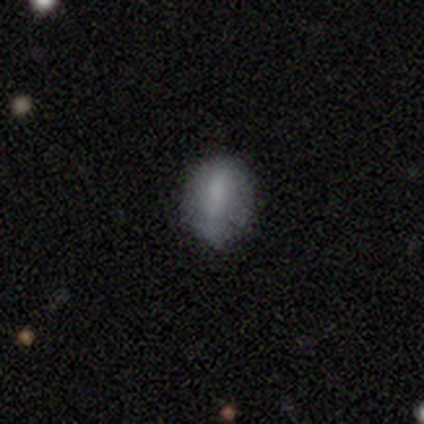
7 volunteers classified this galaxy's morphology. This appears to be a smooth galaxy with no disk features (100%) that is in between round and cigar-shaped (57%). Merging: none (43%, tied with minor disturbance).